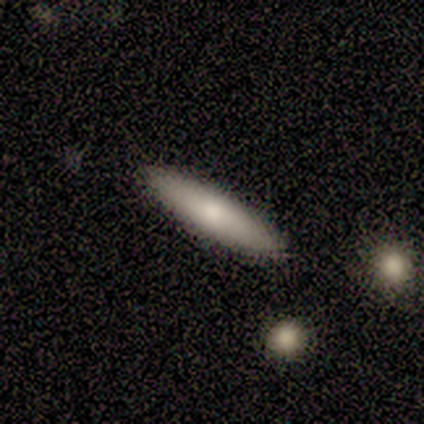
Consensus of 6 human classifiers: smooth_or_featured: smooth (p=0.50) [tied with: featured or disk p=0.50]
how_rounded: cigar-shaped (p=0.67) [alt: in between p=0.33]
merging: none (p=0.83) [alt: major disturbance p=0.17]